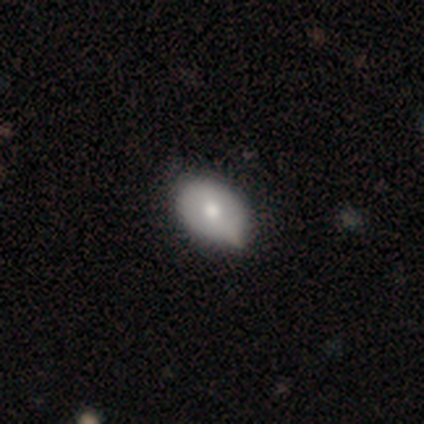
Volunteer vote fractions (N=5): A featured or disk galaxy (60%) with a strong bar (50%, tied with weak), tight (100%) spiral arms (50%, tied with no) and a moderate central bulge (100%). Merging: none (80%).